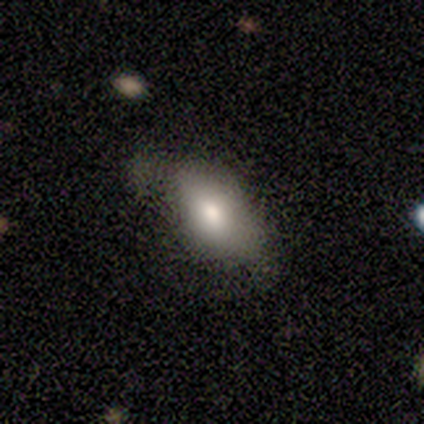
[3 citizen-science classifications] A smooth galaxy with no disk features (67%) that is in between round and cigar-shaped (100%).

Vote fractions:
- Smooth or featured? smooth: 67% / star or artifact: 33% / featured or disk: 0%
- How rounded? in between: 100% / round: 0% / cigar-shaped: 0%
- Merging? none: 100% / minor disturbance: 0% / major disturbance: 0% / merger: 0%